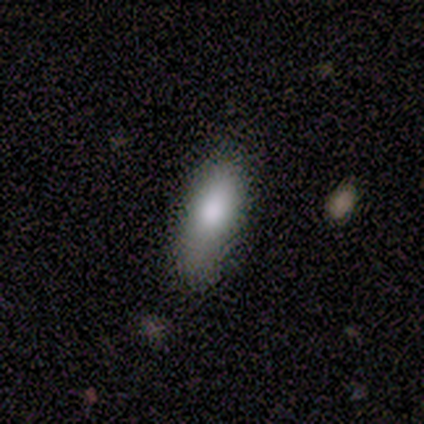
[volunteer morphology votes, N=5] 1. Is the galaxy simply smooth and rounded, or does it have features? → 100% smooth, 0% featured or disk, 0% star or artifact.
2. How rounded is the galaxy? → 60% in between, 40% cigar-shaped, 0% round.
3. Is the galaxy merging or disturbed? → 80% none, 20% minor disturbance, 0% major disturbance, 0% merger.